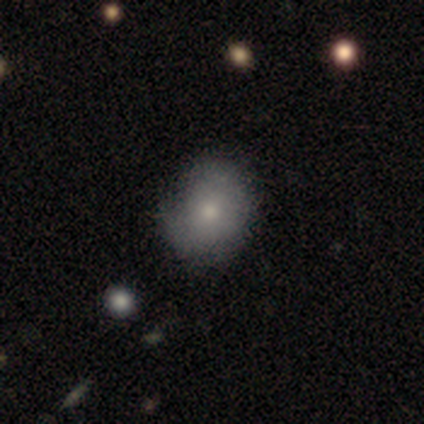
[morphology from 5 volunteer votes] smooth-or-featured: smooth: 60% | featured or disk: 40% | star or artifact: 0%
  how-rounded: in between: 67% | round: 33% | cigar-shaped: 0%
  merging: minor disturbance: 60% | none: 40% | major disturbance: 0% | merger: 0%